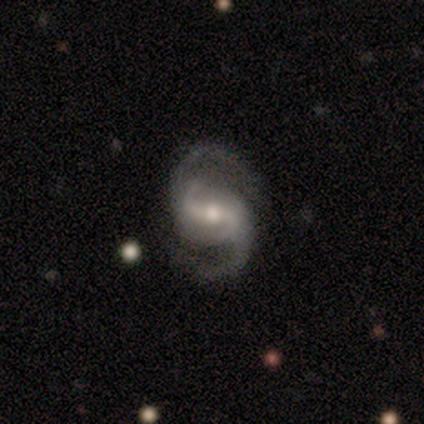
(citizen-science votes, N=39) Smooth or featured?
  - featured or disk: 90% *
  - star or artifact: 8%
  - smooth: 3%
Edge-on disk?
  - no: 91% *
  - yes: 9%
Bar?
  - strong: 47% *
  - weak: 38%
  - no: 16%
Spiral arms?
  - yes: 97% *
  - no: 3%
Spiral winding?
  - medium: 52% *
  - loose: 39%
  - tight: 10%
Spiral arm count?
  - 2: 97% *
  - 3: 3%
  - 1: 0%
  - 4: 0%
  - more than 4: 0%
  - can't tell: 0%
Bulge size?
  - moderate: 59% *
  - small: 25%
  - large: 12%
  - none: 3%
  - dominant: 0%
Merging?
  - none: 86% *
  - major disturbance: 11%
  - minor disturbance: 3%
  - merger: 0%